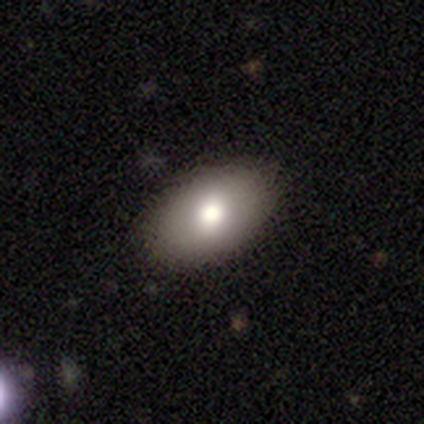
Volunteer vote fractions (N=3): A smooth galaxy with no disk features (100%) that is in between round and cigar-shaped (100%). Merging: none (100%).